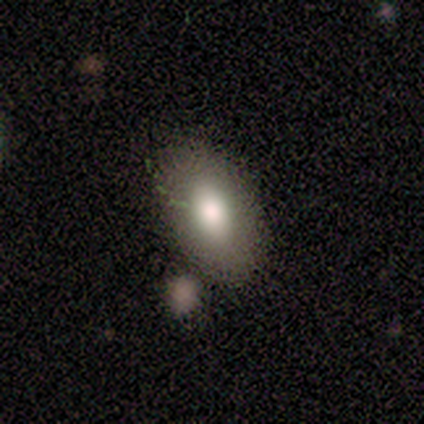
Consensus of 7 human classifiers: smooth-or-featured: smooth: 100% | featured or disk: 0% | star or artifact: 0%
  how-rounded: in between: 100% | round: 0% | cigar-shaped: 0%
  merging: none: 71% | minor disturbance: 14% | merger: 14% | major disturbance: 0%